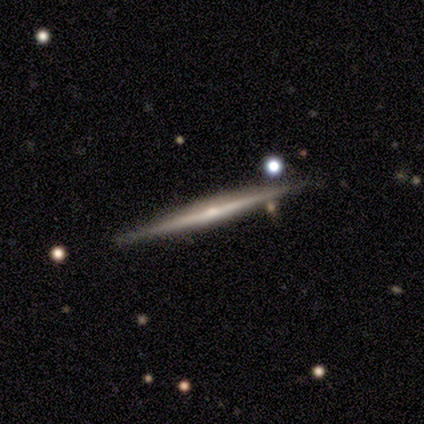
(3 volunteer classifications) Volunteers were most divided on "edge-on bulge" (2-way tie): boxy: 50%, rounded: 50%, none: 0%; "merging" (3-way tie): none: 33%, minor disturbance: 33%, merger: 33%, major disturbance: 0%. More confident: edge-on disk — yes (100%); smooth or featured — featured or disk (67%).